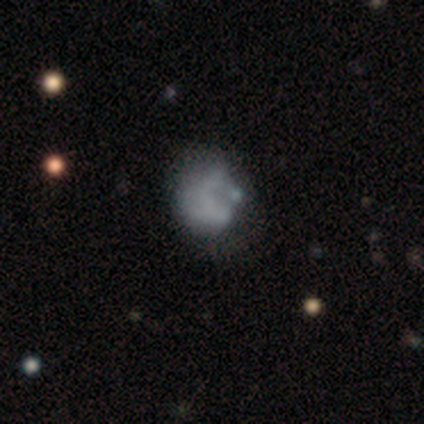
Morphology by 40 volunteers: smooth_or_featured: smooth (p=0.47) [alt: featured or disk p=0.40]
how_rounded: in between (p=0.53) [alt: round p=0.47]
merging: none (p=0.43) [alt: minor disturbance p=0.26]